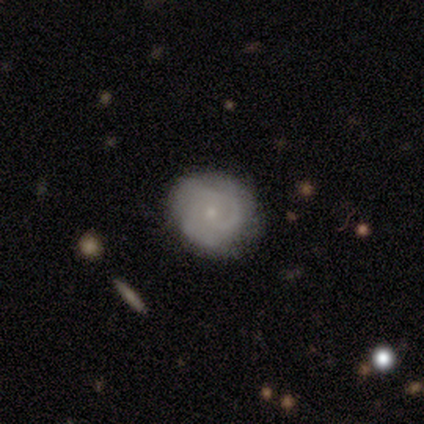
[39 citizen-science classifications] Smooth or featured?
  - featured or disk: 56% *
  - smooth: 38%
  - star or artifact: 5%
Edge-on disk?
  - no: 95% *
  - yes: 5%
Bar?
  - no: 57% *
  - weak: 38%
  - strong: 5%
Spiral arms?
  - yes: 86% *
  - no: 14%
Spiral winding?
  - tight: 61% *
  - medium: 39%
  - loose: 0%
Spiral arm count?
  - 3: 67% *
  - can't tell: 22%
  - 1: 6%
  - 2: 6%
  - 4: 0%
  - more than 4: 0%
Bulge size?
  - small: 76% *
  - moderate: 24%
  - dominant: 0%
  - large: 0%
  - none: 0%
Merging?
  - none: 73% *
  - minor disturbance: 24%
  - major disturbance: 3%
  - merger: 0%